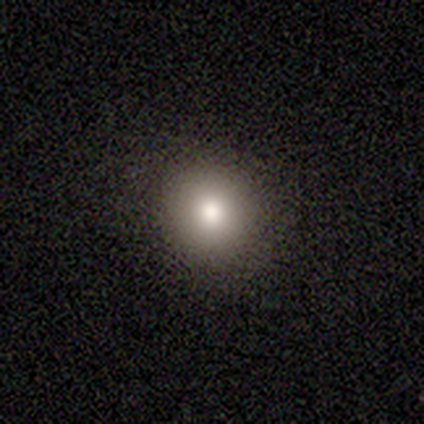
Volunteers were most divided on "smooth or featured": smooth: 60%, star or artifact: 40%, featured or disk: 0%. More confident: merging — none (100%); how rounded — in between (67%).